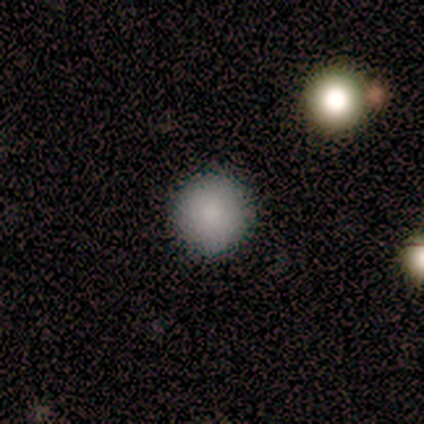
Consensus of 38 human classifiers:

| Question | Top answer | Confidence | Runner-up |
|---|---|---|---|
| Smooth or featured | smooth | 89% | featured or disk (5%) |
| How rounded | round | 100% | — |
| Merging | none | 94% | minor disturbance (3%) |